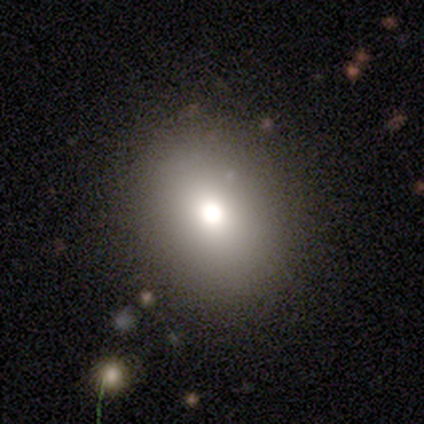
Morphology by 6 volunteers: Smooth or featured?
  - smooth: 83% *
  - featured or disk: 17%
  - star or artifact: 0%
How rounded?
  - round: 60% *
  - in between: 40%
  - cigar-shaped: 0%
Merging?
  - none: 67% *
  - minor disturbance: 17%
  - major disturbance: 17%
  - merger: 0%